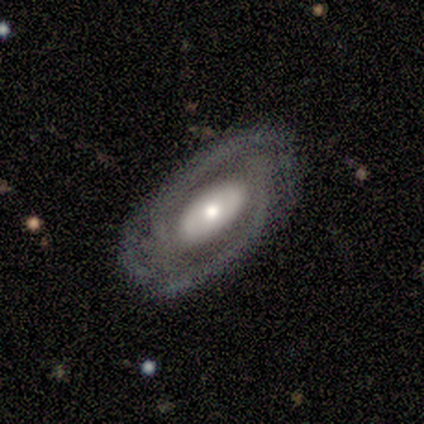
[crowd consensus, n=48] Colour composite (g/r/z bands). It shows a featured or disk galaxy (88%) with no bar (48%), 2 (76%) tight (76%) spiral arms (82%) and a moderate central bulge (57%). Merging: none (83%).